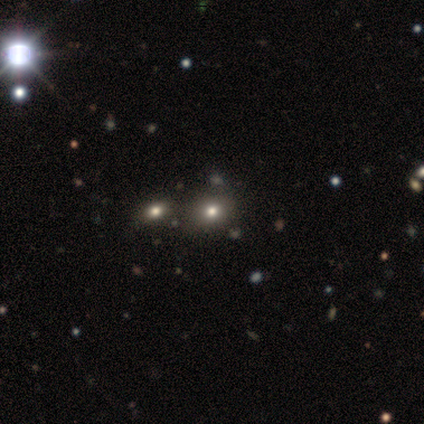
Volunteers were most divided on "how rounded": round: 56%, in between: 40%, cigar-shaped: 4%. More confident: smooth or featured — smooth (64%); merging — none (50%).